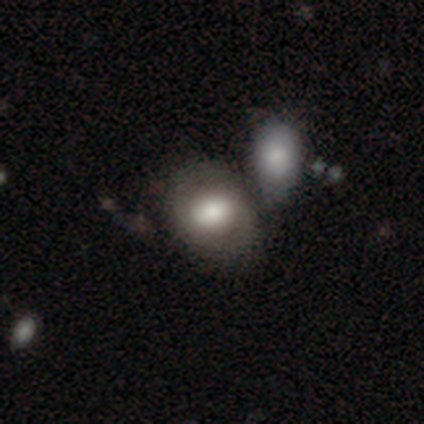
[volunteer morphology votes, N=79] This appears to be a smooth galaxy with no disk features (72%) that is in between round and cigar-shaped (61%). Merging: merger (47%).